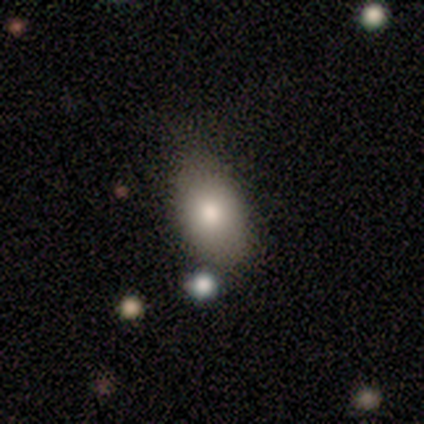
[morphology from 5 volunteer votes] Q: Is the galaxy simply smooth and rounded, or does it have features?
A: smooth — 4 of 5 (80%).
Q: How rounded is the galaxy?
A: in between — 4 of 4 (100%).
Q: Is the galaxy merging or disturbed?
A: none — 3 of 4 (75%).